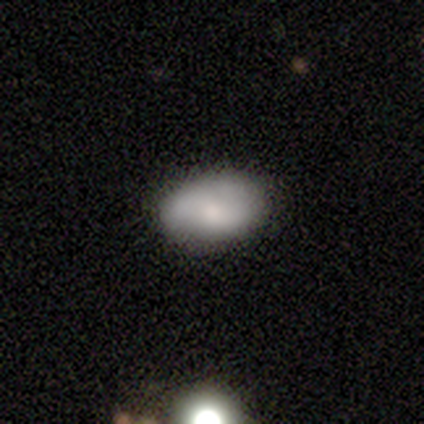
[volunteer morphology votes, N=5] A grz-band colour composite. It shows a smooth galaxy with no disk features (60%) that is in between round and cigar-shaped (67%). Merging: none (80%).